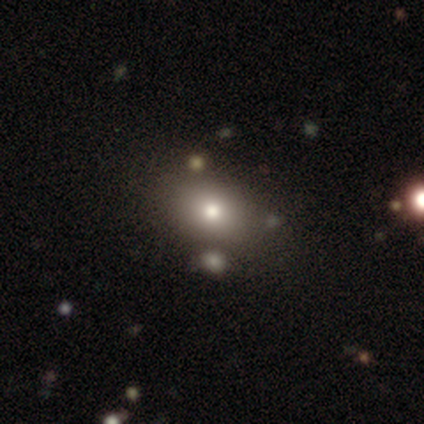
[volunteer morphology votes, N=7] smooth-or-featured: smooth: 100% | featured or disk: 0% | star or artifact: 0%
  how-rounded: in between: 57% | round: 43% | cigar-shaped: 0%
  merging: none: 57% | minor disturbance: 29% | major disturbance: 14% | merger: 0%